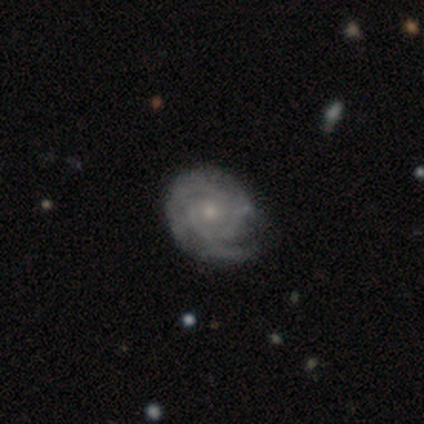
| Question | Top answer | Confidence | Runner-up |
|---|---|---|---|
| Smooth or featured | smooth | 60% | featured or disk (40%) |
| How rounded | round | 67% | in between (33%) |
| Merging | minor disturbance | 60% | none (20%) |